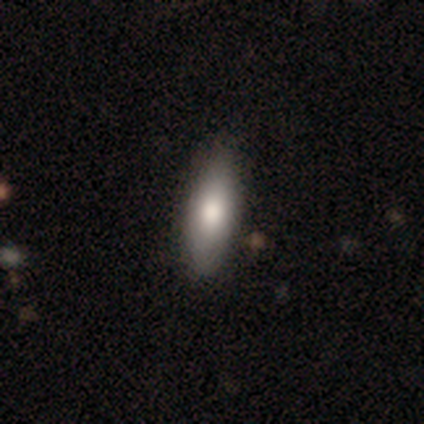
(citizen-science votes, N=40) A smooth galaxy with no disk features (68%) that is in between round and cigar-shaped (74%). Merging: none (62%).